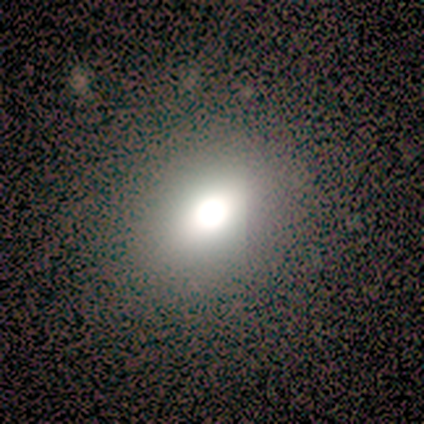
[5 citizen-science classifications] This appears to be a featured or disk galaxy (60%) with no bar (100%), no spiral arms (100%) and a dominant central bulge (67%). Merging: none (80%).